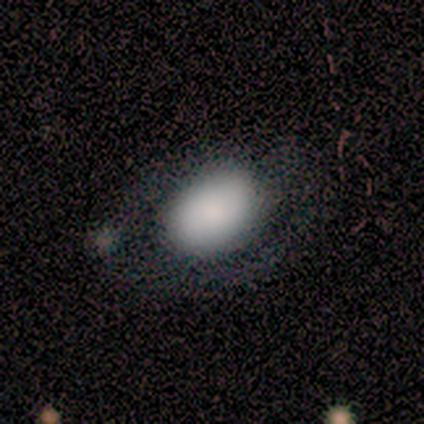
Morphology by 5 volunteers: This appears to be a smooth galaxy with no disk features (80%) that is in between round and cigar-shaped (100%). Merging: none (60%).